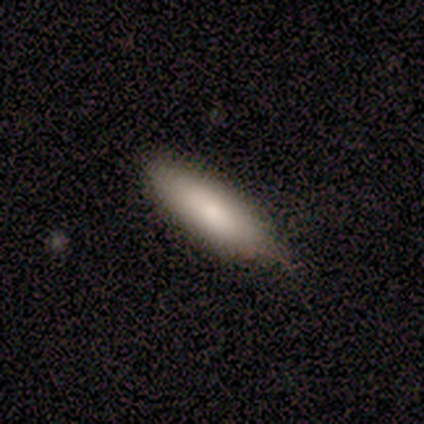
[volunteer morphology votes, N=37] Q: Smooth or featured?
A: smooth (65%); runner-up: featured or disk (32%)
Q: How rounded?
A: cigar-shaped (71%); runner-up: in between (29%)
Q: Merging?
A: none (25%); runner-up: minor disturbance (22%)